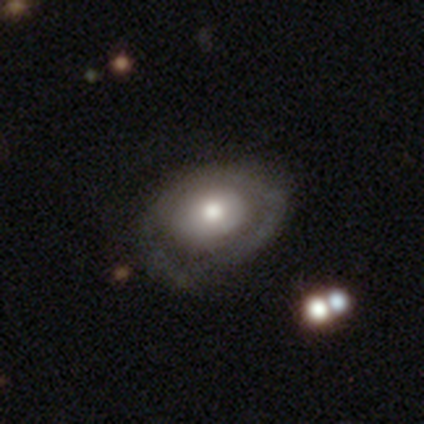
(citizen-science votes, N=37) smooth_or_featured: featured or disk (p=0.62) [alt: smooth p=0.38]
disk_edge_on: no (p=0.96) [alt: yes p=0.04]
bar: no (p=0.95) [alt: weak p=0.05]
has_spiral_arms: no (p=0.64) [alt: yes p=0.36]
bulge_size: moderate (p=0.73) [alt: large p=0.18]
merging: none (p=0.68) [alt: minor disturbance p=0.22]